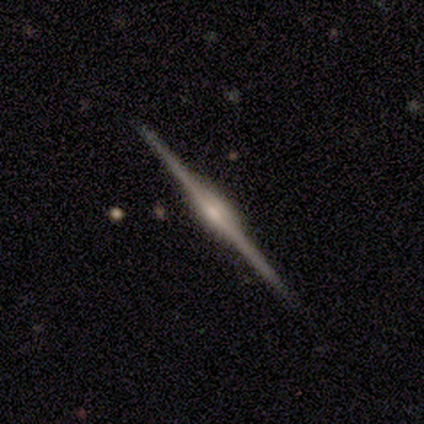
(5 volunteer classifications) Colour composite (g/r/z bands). It shows a featured or disk galaxy (80%) viewed edge-on (100%) with a boxy central bulge (50%, tied with rounded). Merging: none (100%).